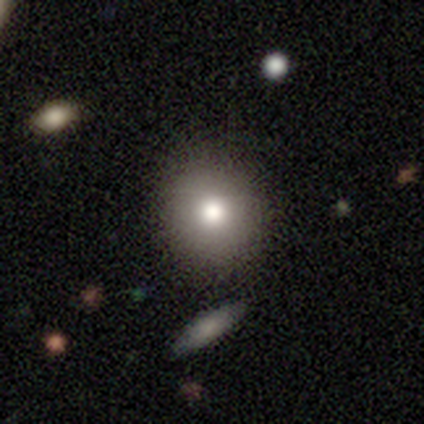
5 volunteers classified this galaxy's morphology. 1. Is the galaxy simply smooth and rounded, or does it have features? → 60% smooth, 40% star or artifact, 0% featured or disk.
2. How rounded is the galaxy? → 100% round, 0% in between, 0% cigar-shaped.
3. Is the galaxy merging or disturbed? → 100% none, 0% minor disturbance, 0% major disturbance, 0% merger.